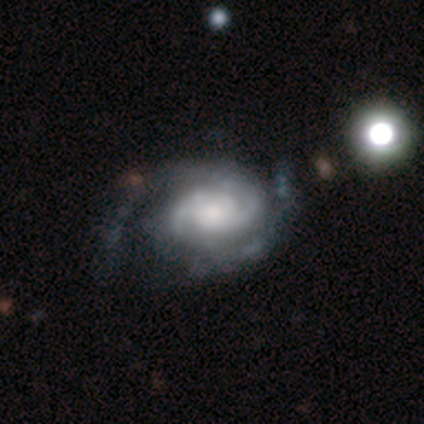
Volunteers were most divided on "bulge size" (3-way tie): moderate: 33%, small: 33%, none: 33%, dominant: 0%, large: 0%. More confident: edge-on disk — no (100%); bar — no (100%); spiral arms — yes (100%); spiral arm count — 2 (100%); smooth or featured — featured or disk (75%); spiral winding — medium (67%); merging — none (67%).